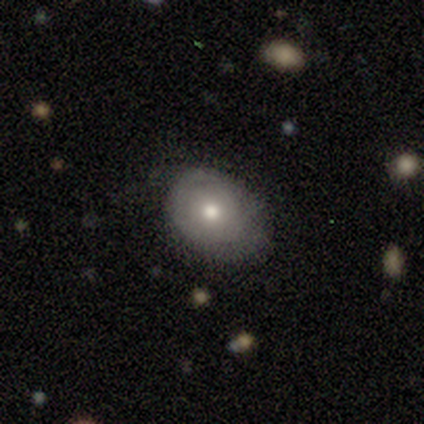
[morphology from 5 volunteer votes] smooth 60%, featured or disk 20%, star or artifact 20%. Down the decision tree: how rounded — round (67%); merging — none (100%).